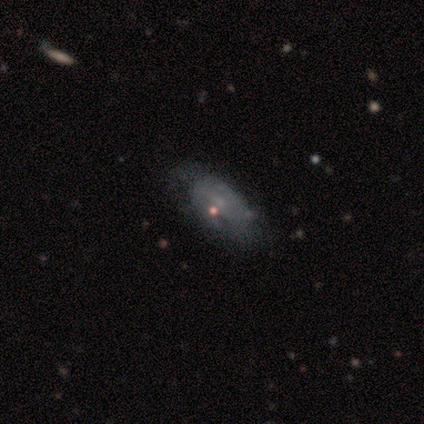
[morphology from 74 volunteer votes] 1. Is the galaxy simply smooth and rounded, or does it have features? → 47% featured or disk, 41% smooth, 12% star or artifact.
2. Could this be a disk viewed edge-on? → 94% no, 6% yes.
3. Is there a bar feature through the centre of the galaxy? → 79% no, 15% weak, 6% strong.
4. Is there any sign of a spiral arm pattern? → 52% no, 48% yes.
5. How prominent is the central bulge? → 45% none, 39% small, 15% moderate, 0% dominant, 0% large.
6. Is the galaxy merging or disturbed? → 58% none, 22% minor disturbance, 18% major disturbance, 2% merger.